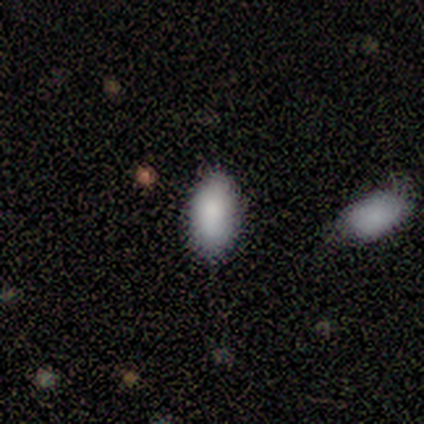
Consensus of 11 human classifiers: Smooth or featured: smooth — 100%
How rounded: in between — 91% (cigar-shaped — 9%)
Merging: none — 64% (minor disturbance — 27%)